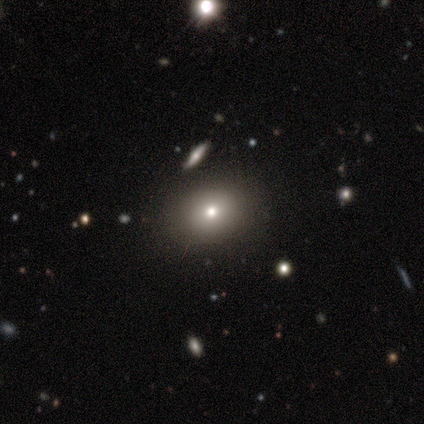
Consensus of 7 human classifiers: A smooth galaxy with no disk features (86%) that is round (67%).

Vote fractions:
- Smooth or featured? smooth: 86% / star or artifact: 14% / featured or disk: 0%
- How rounded? round: 67% / in between: 33% / cigar-shaped: 0%
- Merging? none: 83% / minor disturbance: 17% / major disturbance: 0% / merger: 0%